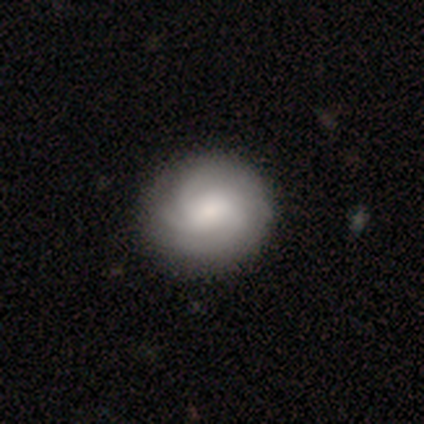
Smooth or featured? featured or disk (57%)
Edge-on disk? no (95%)
Bar? no (63%)
Spiral arms? yes (89%)
Spiral winding? tight (82%)
Spiral arm count? 4 (35%)
Bulge size? moderate (32%, tied with small)
Merging? none (83%)